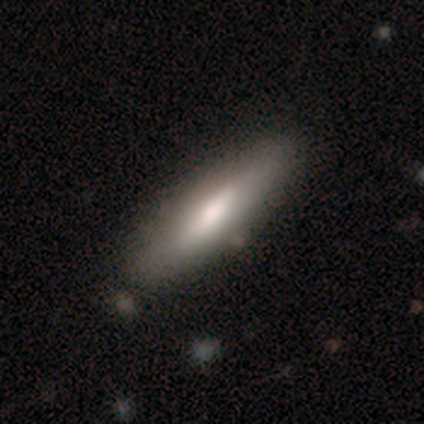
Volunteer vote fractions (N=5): Overall: smooth (80%). How rounded: in between (50%, tied with cigar-shaped). Merging: none (100%).